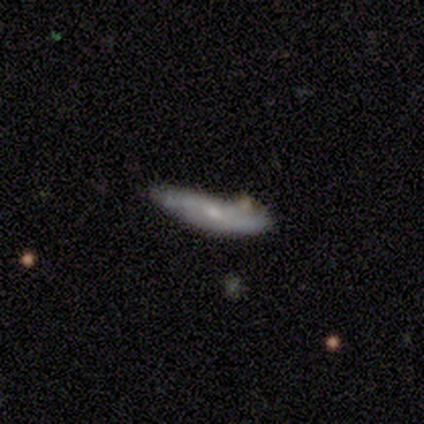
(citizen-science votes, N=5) Smooth or featured?
  - featured or disk: 100% *
  - smooth: 0%
  - star or artifact: 0%
Edge-on disk?
  - no: 100% *
  - yes: 0%
Bar?
  - weak: 80% *
  - no: 20%
  - strong: 0%
Spiral arms?
  - yes: 80% *
  - no: 20%
Spiral winding?
  - medium: 50% * (tied)
  - loose: 50% * (tied)
  - tight: 0%
Spiral arm count?
  - 2: 75% *
  - can't tell: 25%
  - 1: 0%
  - 3: 0%
  - 4: 0%
  - more than 4: 0%
Bulge size?
  - small: 80% *
  - moderate: 20%
  - dominant: 0%
  - large: 0%
  - none: 0%
Merging?
  - none: 60% *
  - minor disturbance: 40%
  - major disturbance: 0%
  - merger: 0%